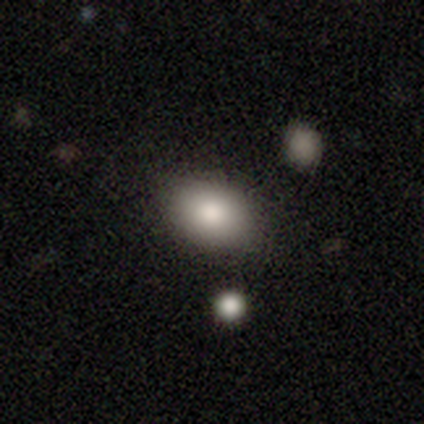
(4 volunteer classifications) smooth 50% (tied), featured or disk 50% (tied), star or artifact 0%. Down the decision tree: how rounded — round (50%, tied with in between); merging — none (75%).